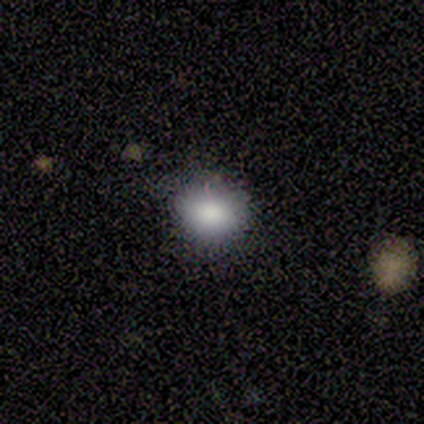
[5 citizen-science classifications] This appears to be a smooth galaxy with no disk features (80%) that is round (50%, tied with in between). Merging: none (60%).